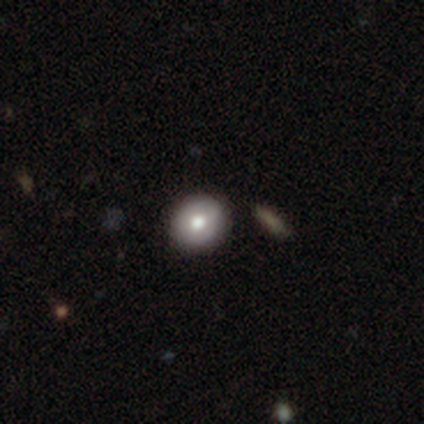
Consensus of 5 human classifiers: Overall: smooth (80%). How rounded: round (100%). Merging: none (100%).